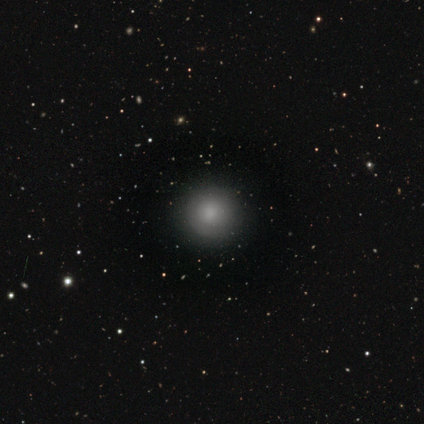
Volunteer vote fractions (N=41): A smooth galaxy with no disk features (73%) that is round (97%).

Vote fractions:
- Smooth or featured? smooth: 73% / featured or disk: 22% / star or artifact: 5%
- How rounded? round: 97% / cigar-shaped: 3% / in between: 0%
- Merging? none: 90% / minor disturbance: 8% / major disturbance: 3% / merger: 0%